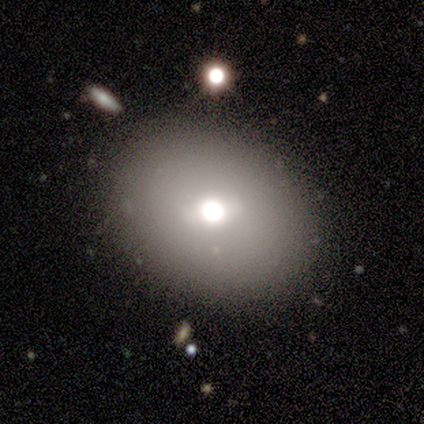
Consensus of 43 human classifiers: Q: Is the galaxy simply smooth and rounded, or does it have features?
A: smooth — 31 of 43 (72%).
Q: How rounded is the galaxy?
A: in between — 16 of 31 (52%).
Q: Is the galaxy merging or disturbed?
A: none — 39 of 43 (91%).